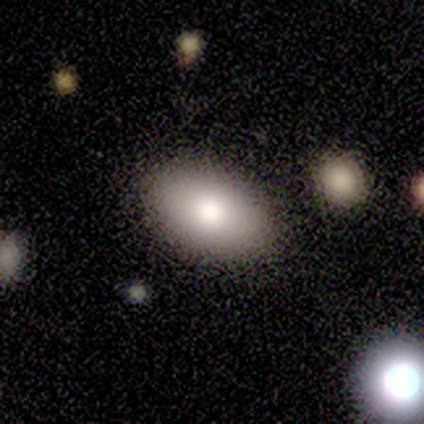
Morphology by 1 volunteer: Consensus on every question: smooth or featured — smooth (100%); how rounded — in between (100%); merging — none (100%).